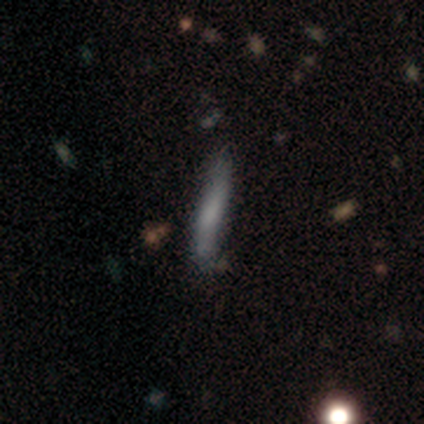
smooth_or_featured: smooth (p=1.00)
how_rounded: cigar-shaped (p=1.00)
merging: none (p=1.00)